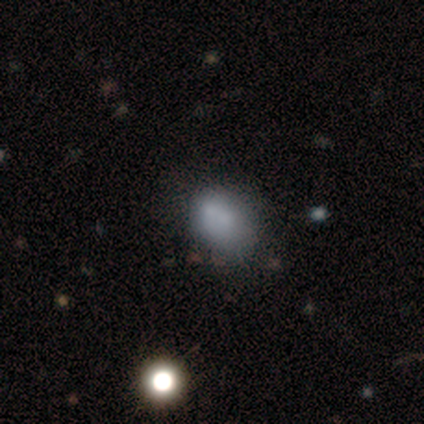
smooth-or-featured: smooth: 75% | star or artifact: 25% | featured or disk: 0%
  how-rounded: in between: 100% | round: 0% | cigar-shaped: 0%
  merging: none: 67% | merger: 33% | minor disturbance: 0% | major disturbance: 0%